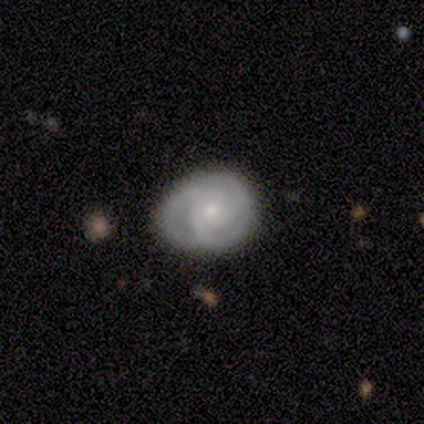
A featured or disk galaxy (80%) with no bar (100%), 2 (67%) tight (33%, tied with medium and loose) spiral arms (100%) and a small central bulge (100%).

Vote fractions:
- Smooth or featured? featured or disk: 80% / star or artifact: 20% / smooth: 0%
- Edge-on disk? no: 75% / yes: 25%
- Bar? no: 100% / strong: 0% / weak: 0%
- Spiral arms? yes: 100% / no: 0%
- Spiral winding? tight: 33% (tied) / medium: 33% (tied) / loose: 33% (tied)
- Spiral arm count? 2: 67% / 3: 33% / 1: 0% / 4: 0% / more than 4: 0% / can't tell: 0%
- Bulge size? small: 100% / dominant: 0% / large: 0% / moderate: 0% / none: 0%
- Merging? none: 100% / minor disturbance: 0% / major disturbance: 0% / merger: 0%